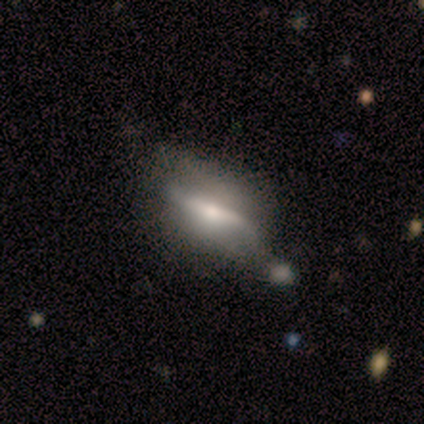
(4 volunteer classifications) smooth-or-featured: featured or disk: 50% | smooth: 25% | star or artifact: 25%
  disk-edge-on: yes: 50% (tied) | no: 50% (tied)
    edge-on-bulge: rounded: 100% | boxy: 0% | none: 0%
  merging: none: 67% | minor disturbance: 33% | major disturbance: 0% | merger: 0%